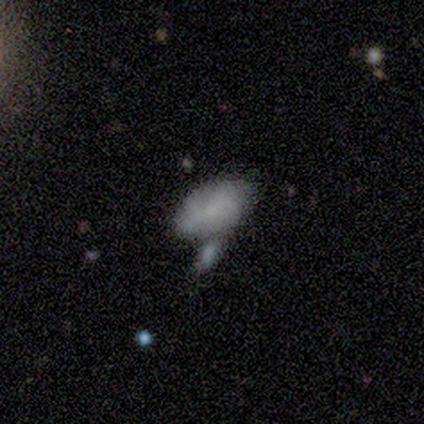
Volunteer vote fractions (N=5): smooth_or_featured: smooth (p=0.80) [alt: featured or disk p=0.20]
how_rounded: in between (p=0.75) [alt: round p=0.25]
merging: none (p=0.60) [alt: minor disturbance p=0.20]